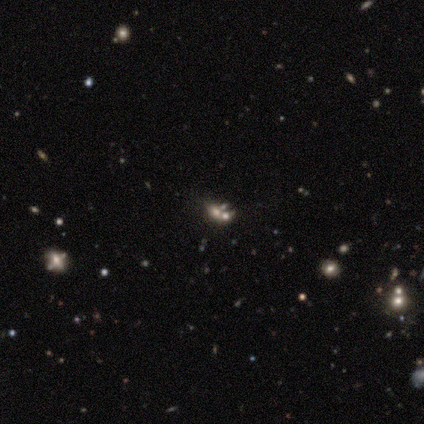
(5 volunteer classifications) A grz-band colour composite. It shows a smooth galaxy with no disk features (40%, tied with star or artifact) that is round (100%). Merging: none (67%).